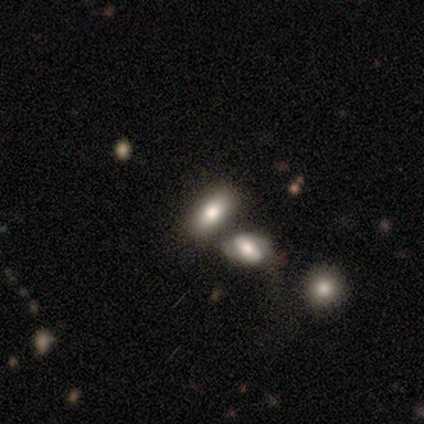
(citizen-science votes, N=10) smooth_or_featured: smooth (p=0.80) [alt: featured or disk p=0.10]
how_rounded: in between (p=0.88) [alt: cigar-shaped p=0.12]
merging: none (p=0.78) [alt: minor disturbance p=0.11]